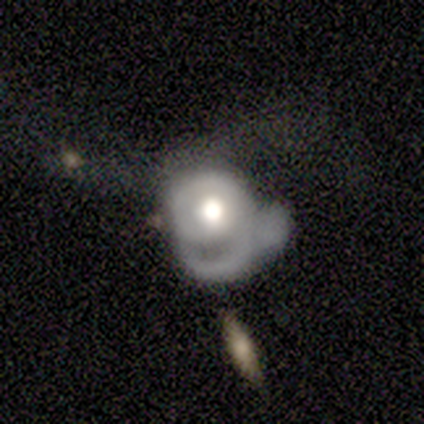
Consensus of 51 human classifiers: A featured or disk galaxy (73%) with no bar (91%), 1 (50%) tight (67%) spiral arms (51%) and a large central bulge (54%). Merging: major disturbance (61%).